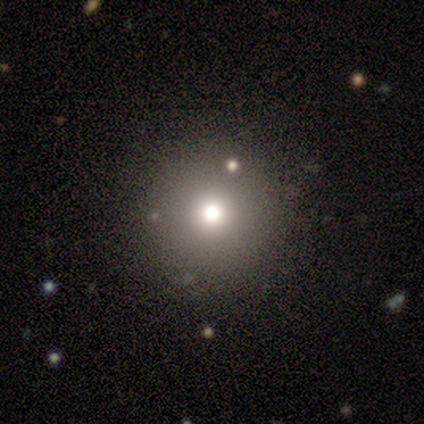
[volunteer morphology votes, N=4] Smooth or featured? smooth (75%)
How rounded? round (100%)
Merging? none (100%)